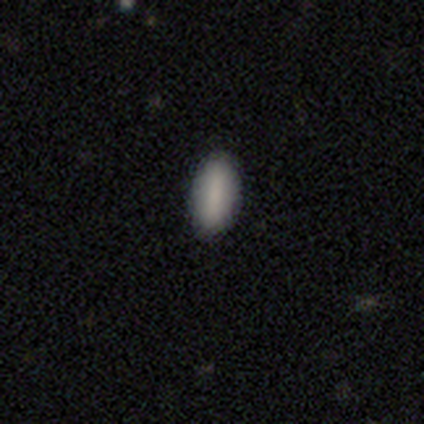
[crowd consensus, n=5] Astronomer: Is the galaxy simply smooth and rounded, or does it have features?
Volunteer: smooth — 100%.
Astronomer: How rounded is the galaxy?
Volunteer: in between — 100%.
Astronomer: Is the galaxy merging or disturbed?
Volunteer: none — 100%.